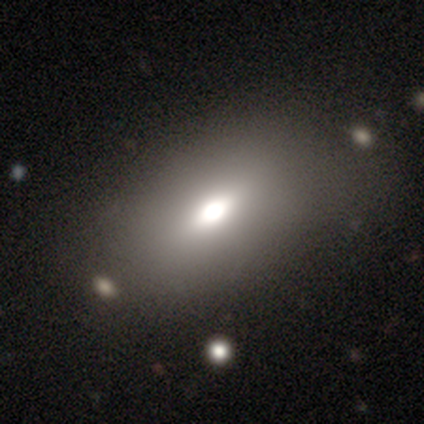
featured or disk 40% (tied), star or artifact 40% (tied), smooth 20%. Down the decision tree: edge-on disk — yes (100%); edge-on bulge — rounded (100%); merging — none (67%).